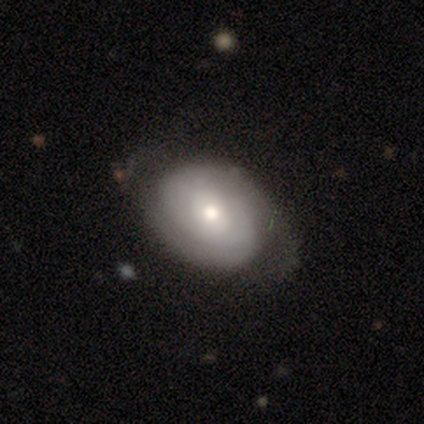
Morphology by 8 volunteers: This is likely a featured or disk galaxy (62%). It is clearly not viewed edge-on (100%). Bar: likely no (60%). Spiral arm pattern: clearly yes (100%). Spiral arm count: likely 2 (60%). Spiral winding: clearly tight (100%). Central bulge: marginally moderate (40%, tied with small). Merging: possibly none (57%).